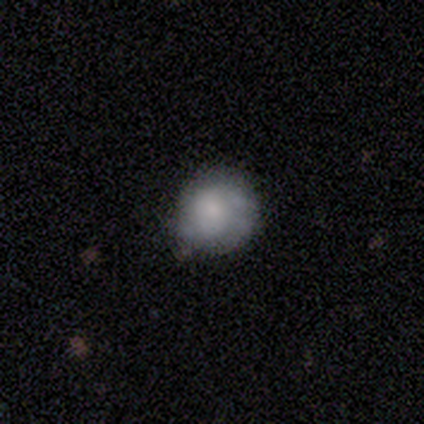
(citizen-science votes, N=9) Smooth or featured? 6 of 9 (67%) said smooth. How rounded? 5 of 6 (83%) said round. Merging? 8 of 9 (89%) said none.